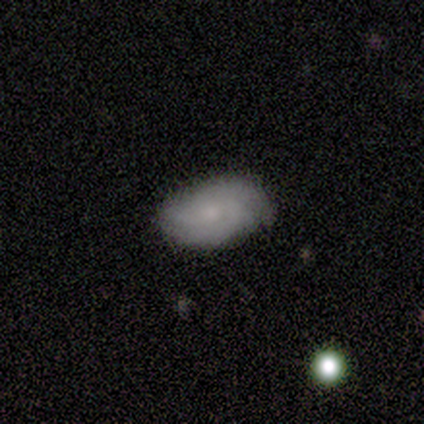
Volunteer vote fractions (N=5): Smooth or featured: featured or disk — 100%
Edge-on disk: no — 100%
Bar: weak — 60% (no — 40%)
Spiral arms: yes — 80% (no — 20%)
Spiral winding: tight — 50% (tied with medium — 50%)
Spiral arm count: 3 — 50% (2 — 25%)
Bulge size: small — 100%
Merging: none — 100%